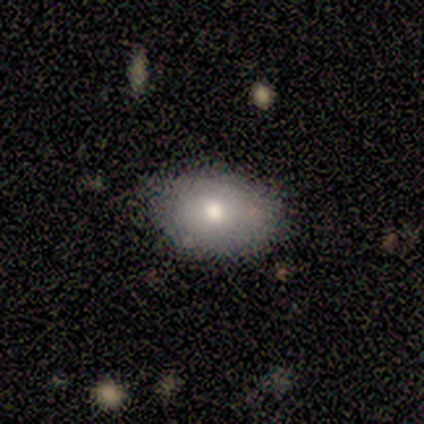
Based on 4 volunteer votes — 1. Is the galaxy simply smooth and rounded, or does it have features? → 50% smooth (tied), 50% featured or disk (tied), 0% star or artifact.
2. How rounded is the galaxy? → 100% in between, 0% round, 0% cigar-shaped.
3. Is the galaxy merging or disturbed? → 75% none, 25% minor disturbance, 0% major disturbance, 0% merger.